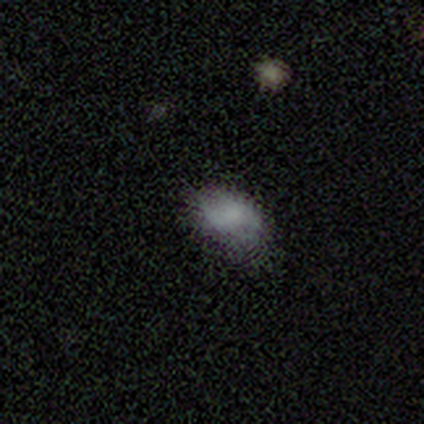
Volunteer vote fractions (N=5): A smooth galaxy with no disk features (100%) that is in between round and cigar-shaped (100%). Merging: minor disturbance (80%).